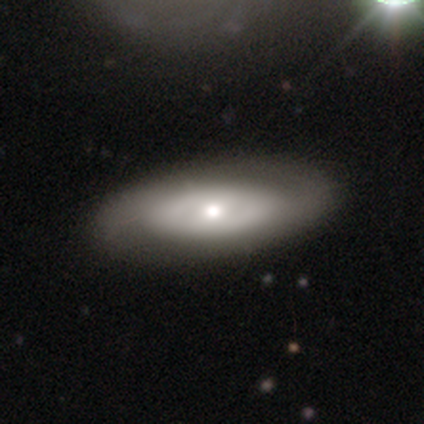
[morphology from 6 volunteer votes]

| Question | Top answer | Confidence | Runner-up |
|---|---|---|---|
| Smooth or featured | smooth | 50% | tied: featured or disk (50%) |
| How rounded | in between | 67% | cigar-shaped (33%) |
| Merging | none | 67% | minor disturbance (33%) |